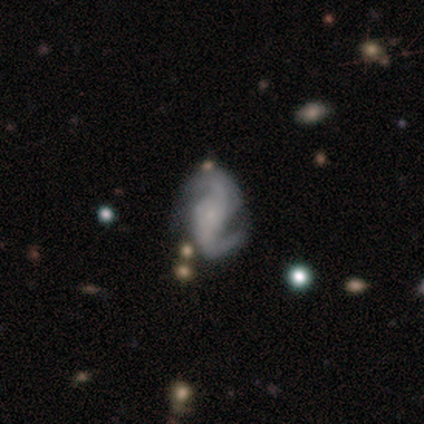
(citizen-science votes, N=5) Overall: featured or disk (80%). Edge-on disk: no (100%). Bar: weak (75%). Spiral arms: yes (100%). Spiral arm count: 2 (100%). Spiral winding: medium (50%; tight 25%). Bulge size: small (75%). Merging: minor disturbance (60%; none 40%).